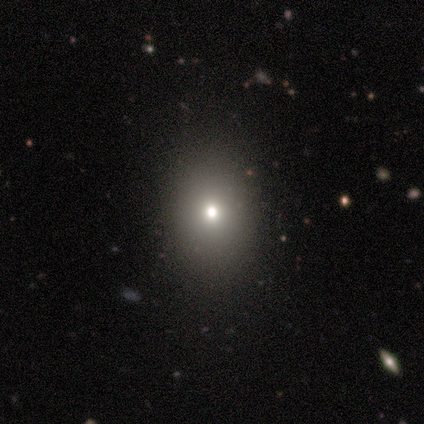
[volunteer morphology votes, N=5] star or artifact 60%, smooth 40%, featured or disk 0%.